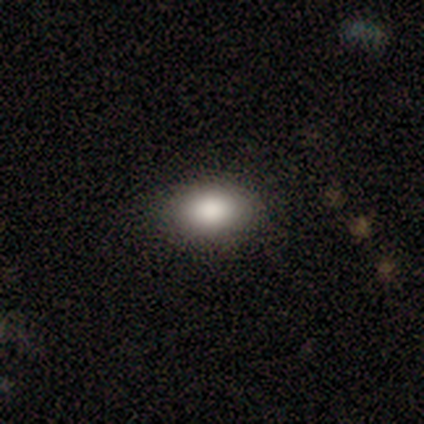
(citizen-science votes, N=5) A smooth galaxy with no disk features (80%) that is in between round and cigar-shaped (100%). Merging: none (75%).